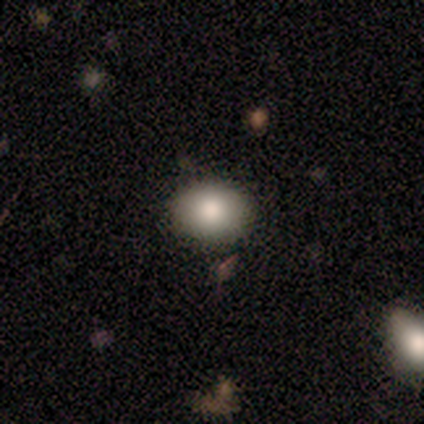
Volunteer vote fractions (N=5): A smooth galaxy with no disk features (60%) that is in between round and cigar-shaped (67%).

Vote fractions:
- Smooth or featured? smooth: 60% / featured or disk: 20% / star or artifact: 20%
- How rounded? in between: 67% / round: 33% / cigar-shaped: 0%
- Merging? none: 50% / minor disturbance: 25% / major disturbance: 25% / merger: 0%